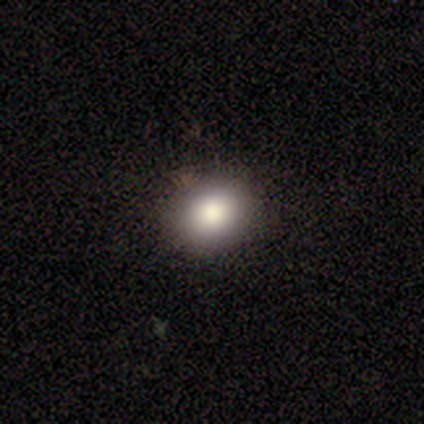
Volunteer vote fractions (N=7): smooth-or-featured: smooth: 86% | featured or disk: 14% | star or artifact: 0%
  how-rounded: round: 67% | in between: 33% | cigar-shaped: 0%
  merging: none: 86% | minor disturbance: 14% | major disturbance: 0% | merger: 0%